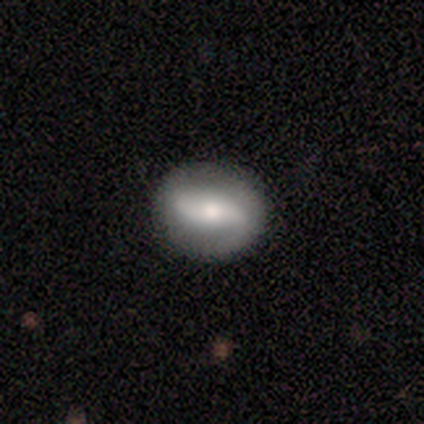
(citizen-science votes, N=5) smooth_or_featured: featured or disk (p=0.80) [alt: star or artifact p=0.20]
disk_edge_on: no (p=1.00)
bar: strong (p=0.50) [alt: weak p=0.25]
has_spiral_arms: yes (p=1.00)
spiral_winding: medium (p=0.50) [alt: tight p=0.25]
spiral_arm_count: 2 (p=1.00)
bulge_size: small (p=0.75) [alt: large p=0.25]
merging: none (p=1.00)